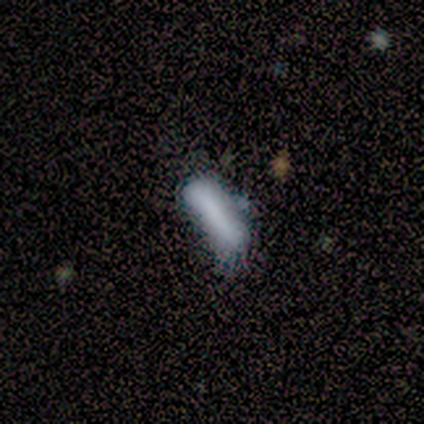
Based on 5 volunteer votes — Morphology: type=smooth (60%); roundness=cigar-shaped (67%); merging=none (40%, tied with major disturbance).